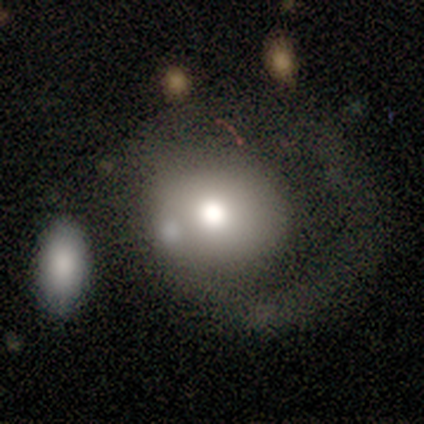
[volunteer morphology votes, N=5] Smooth or featured? smooth (80%)
How rounded? round (100%)
Merging? minor disturbance (50%)